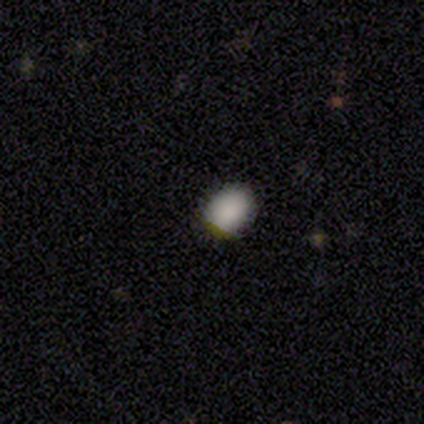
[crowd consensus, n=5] Morphology: type=smooth (100%); roundness=in between (60%); merging=none (100%).